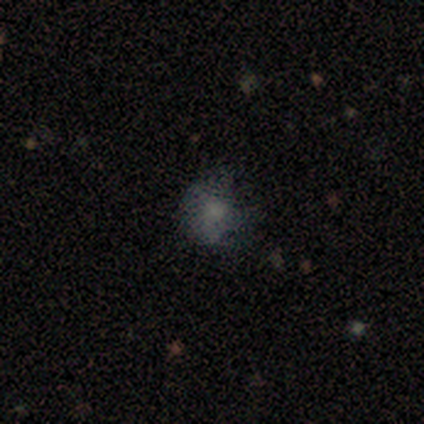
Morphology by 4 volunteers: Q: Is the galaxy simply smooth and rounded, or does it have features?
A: star or artifact — 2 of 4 (50%).